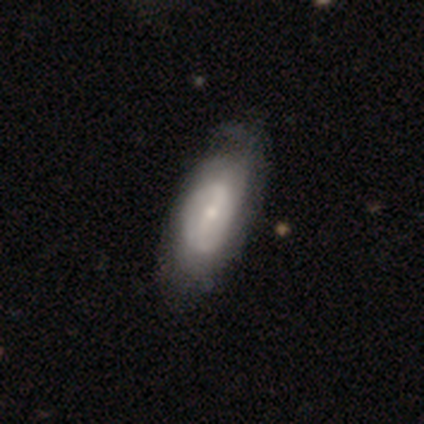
featured or disk 77%, smooth 18%, star or artifact 5%. Down the decision tree: edge-on disk — no (97%); bar — weak (45%); spiral arms — yes (59%); spiral arm count — 2 (59%); spiral winding — medium (35%, tied with loose); bulge size — small (62%); merging — none (35%).